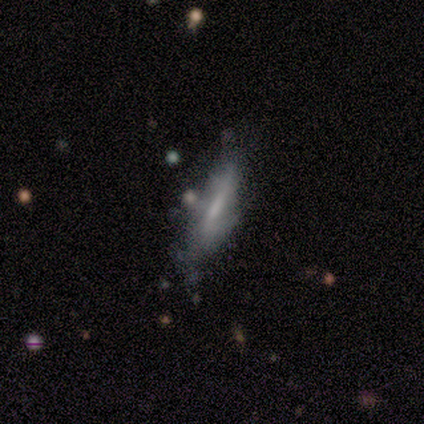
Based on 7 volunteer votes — smooth_or_featured: featured or disk (p=0.57) [alt: smooth p=0.29]
disk_edge_on: yes (p=0.75) [alt: no p=0.25]
edge_on_bulge: none (p=1.00)
merging: none (p=0.50) [alt: minor disturbance p=0.33]